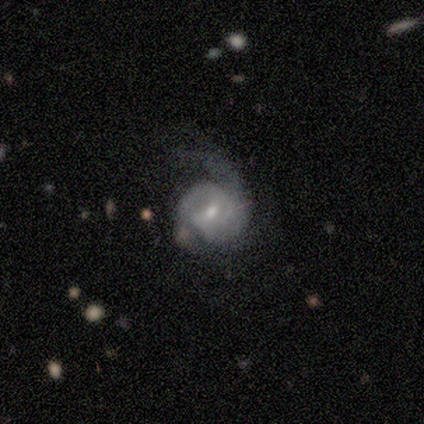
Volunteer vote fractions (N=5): smooth-or-featured: featured or disk: 100% | smooth: 0% | star or artifact: 0%
  disk-edge-on: no: 100% | yes: 0%
    bar: weak: 60% | strong: 20% | no: 20%
    has-spiral-arms: yes: 80% | no: 20%
      spiral-winding: tight: 50% (tied) | medium: 50% (tied) | loose: 0%
      spiral-arm-count: 2: 50% | 1: 25% | 3: 25% | 4: 0% | more than 4: 0% | can't tell: 0%
    bulge-size: small: 80% | moderate: 20% | dominant: 0% | large: 0% | none: 0%
  merging: none: 60% | minor disturbance: 20% | major disturbance: 20% | merger: 0%